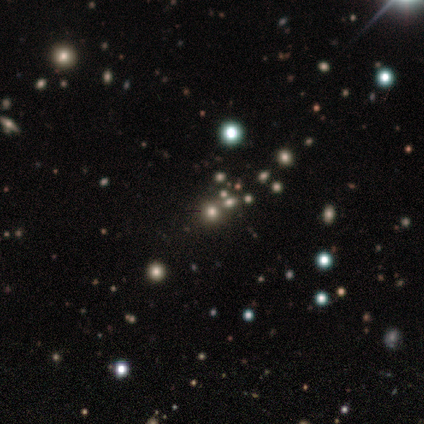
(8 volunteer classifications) Smooth or featured? smooth (50%, tied with star or artifact)
How rounded? round (100%)
Merging? none (100%)